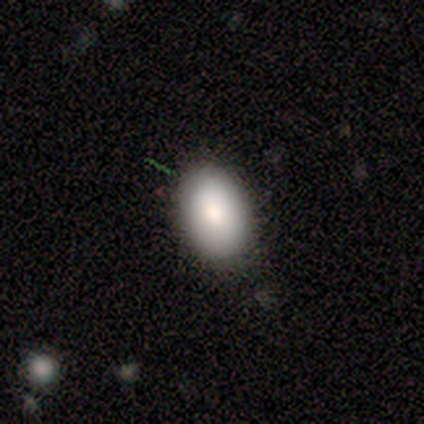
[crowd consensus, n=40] Volunteers were most divided on "merging": none: 83%, minor disturbance: 14%, merger: 3%, major disturbance: 0%. More confident: how rounded — in between (88%); smooth or featured — smooth (85%).